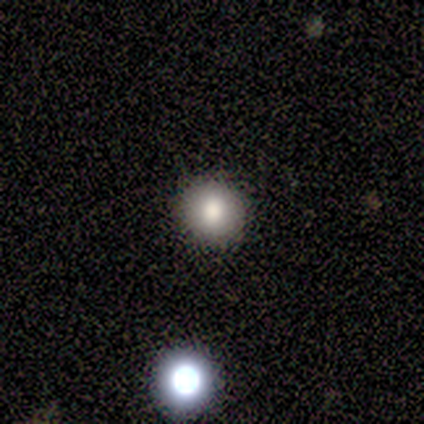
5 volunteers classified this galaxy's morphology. Smooth or featured? smooth (60%)
How rounded? round (100%)
Merging? none (75%)